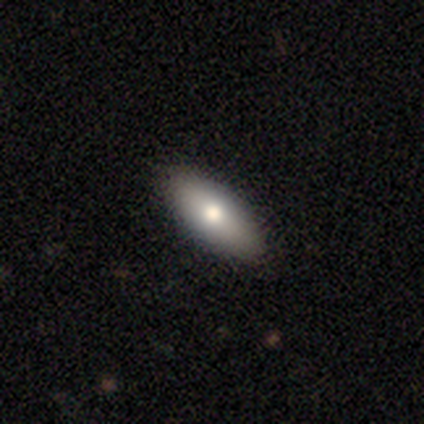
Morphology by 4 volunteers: Q: Smooth or featured?
A: smooth (50%); runner-up: featured or disk (25%)
Q: How rounded?
A: in between (100%)
Q: Merging?
A: none (100%)